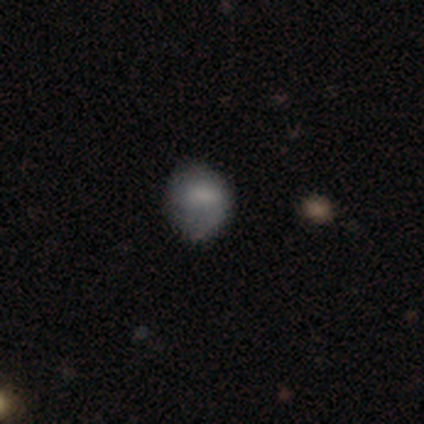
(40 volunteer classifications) Morphology: type=smooth (78%); roundness=round (65%); merging=none (59%).